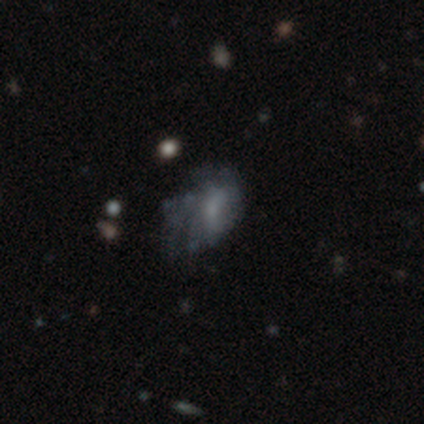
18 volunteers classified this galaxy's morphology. Smooth or featured?
  - smooth: 44% * (tied)
  - featured or disk: 44% * (tied)
  - star or artifact: 11%
How rounded?
  - in between: 100% *
  - round: 0%
  - cigar-shaped: 0%
Merging?
  - major disturbance: 50% *
  - none: 38%
  - minor disturbance: 12%
  - merger: 0%